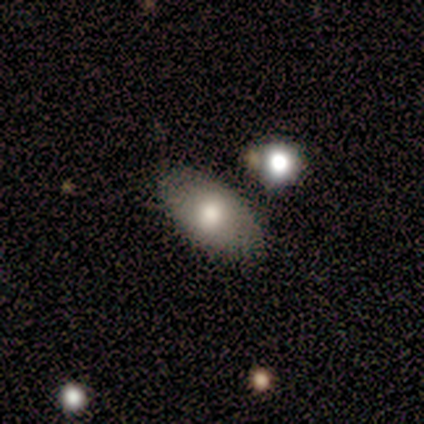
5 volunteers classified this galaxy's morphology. smooth 100%, featured or disk 0%, star or artifact 0%. Down the decision tree: how rounded — in between (80%); merging — none (60%).